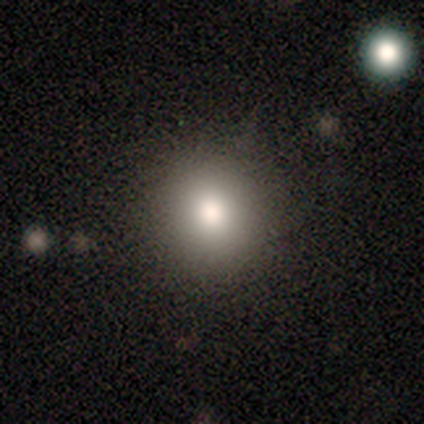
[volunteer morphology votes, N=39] smooth-or-featured: smooth: 82% | star or artifact: 10% | featured or disk: 8%
  how-rounded: round: 94% | in between: 6% | cigar-shaped: 0%
  merging: none: 91% | minor disturbance: 6% | major disturbance: 3% | merger: 0%